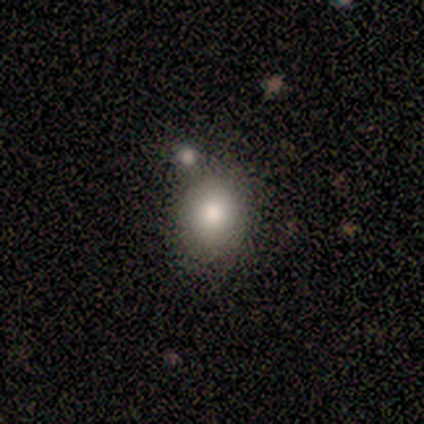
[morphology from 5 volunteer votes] smooth 100%, featured or disk 0%, star or artifact 0%. Down the decision tree: how rounded — in between (60%); merging — none (60%).